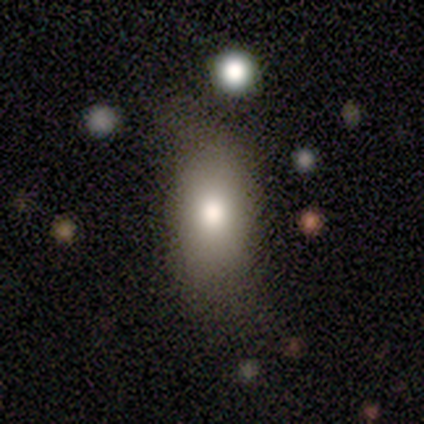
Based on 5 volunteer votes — smooth-or-featured: smooth: 60% | featured or disk: 40% | star or artifact: 0%
  how-rounded: in between: 67% | cigar-shaped: 33% | round: 0%
  merging: minor disturbance: 60% | none: 40% | major disturbance: 0% | merger: 0%